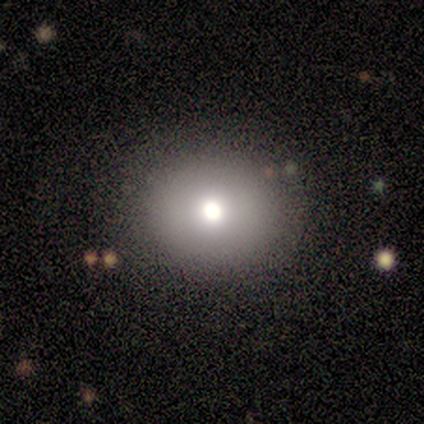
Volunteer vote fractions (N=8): Morphology: type=smooth (75%); roundness=round (83%); merging=none (88%).